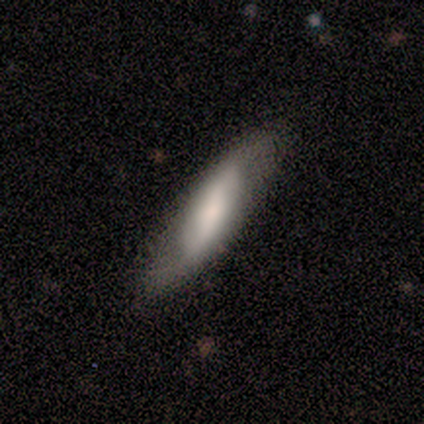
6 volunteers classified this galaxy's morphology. Smooth or featured: smooth — 50% (tied with featured or disk — 50%)
How rounded: cigar-shaped — 100%
Merging: none — 50% (minor disturbance — 33%)